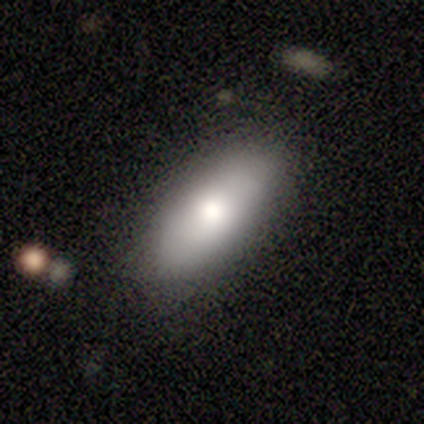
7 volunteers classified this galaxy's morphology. Smooth or featured? 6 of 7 (86%) said smooth. How rounded? 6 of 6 (100%) said in between. Merging? 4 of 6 (67%) said none.